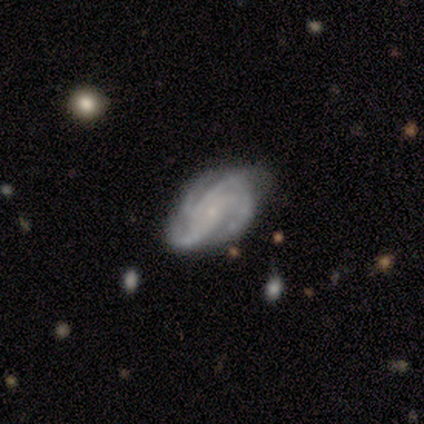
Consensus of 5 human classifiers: This is clearly a featured or disk galaxy (100%). It is clearly not viewed edge-on (100%). Bar: marginally weak (40%, tied with no). Spiral arm pattern: clearly yes (100%). Spiral arm count: likely 4 (60%). Spiral winding: clearly medium (80%). Central bulge: clearly small (100%). Merging: clearly none (100%).